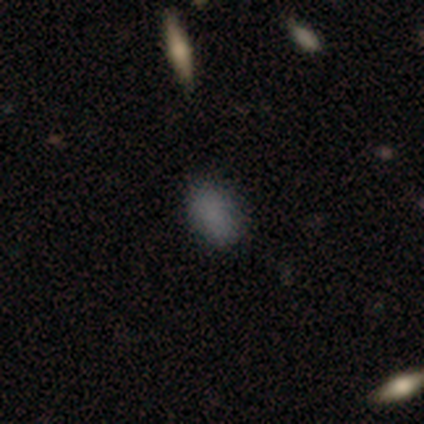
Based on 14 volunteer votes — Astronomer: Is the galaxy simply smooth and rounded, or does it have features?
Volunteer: smooth — 86%.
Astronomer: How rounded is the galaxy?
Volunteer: in between — 92%.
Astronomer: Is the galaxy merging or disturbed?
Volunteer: none — 92%.